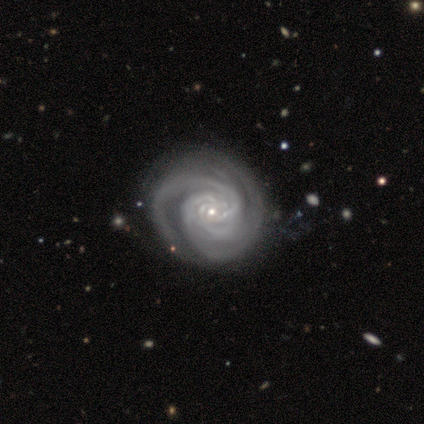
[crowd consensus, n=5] A featured or disk galaxy (100%) with no bar (100%), 3 (40%) tight (80%) spiral arms (100%) and a small central bulge (100%). Merging: none (60%).